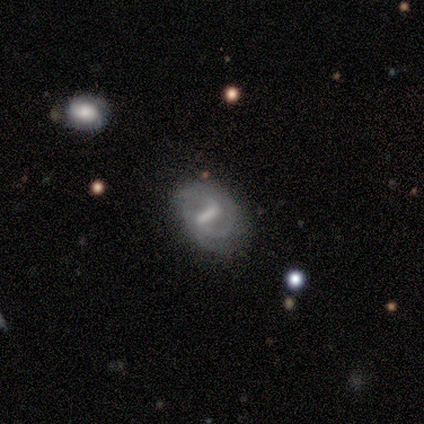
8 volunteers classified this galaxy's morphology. A featured or disk galaxy (100%) with a strong bar (75%), 2 (33%, tied with can't tell) tight (67%) spiral arms (75%) and a moderate central bulge (50%, tied with none).

Vote fractions:
- Smooth or featured? featured or disk: 100% / smooth: 0% / star or artifact: 0%
- Edge-on disk? no: 100% / yes: 0%
- Bar? strong: 75% / weak: 25% / no: 0%
- Spiral arms? yes: 75% / no: 25%
- Spiral winding? tight: 67% / medium: 17% / loose: 17%
- Spiral arm count? 2: 33% (tied) / can't tell: 33% (tied) / 3: 17% / 4: 17% / 1: 0% / more than 4: 0%
- Bulge size? moderate: 50% (tied) / none: 50% (tied) / dominant: 0% / large: 0% / small: 0%
- Merging? minor disturbance: 50% / none: 38% / merger: 12% / major disturbance: 0%